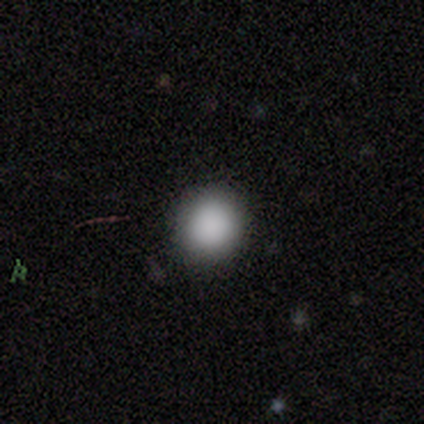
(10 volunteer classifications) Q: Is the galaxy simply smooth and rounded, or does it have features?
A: smooth — 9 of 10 (90%).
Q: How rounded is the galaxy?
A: round — 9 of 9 (100%).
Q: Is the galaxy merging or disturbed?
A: none — 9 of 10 (90%).